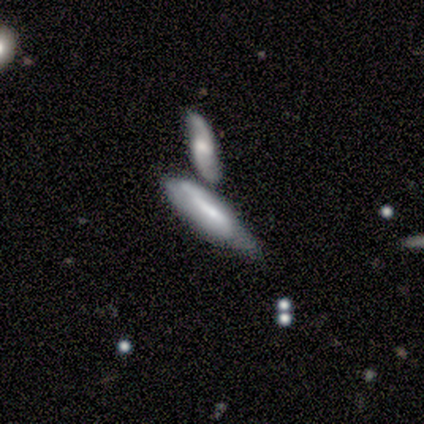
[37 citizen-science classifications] A featured or disk galaxy (59%) viewed edge-on (50%, tied with no) with a rounded central bulge (55%). Merging: merger (46%).